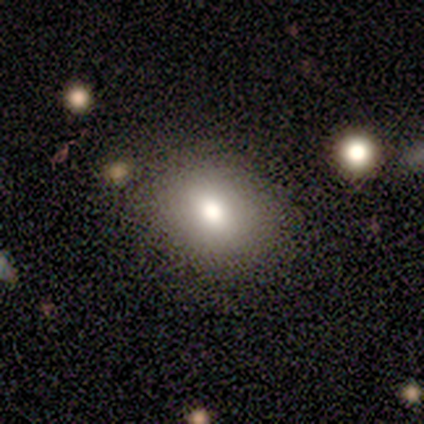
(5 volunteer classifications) Smooth or featured?
  - smooth: 60% *
  - featured or disk: 20%
  - star or artifact: 20%
How rounded?
  - round: 67% *
  - in between: 33%
  - cigar-shaped: 0%
Merging?
  - none: 100% *
  - minor disturbance: 0%
  - major disturbance: 0%
  - merger: 0%